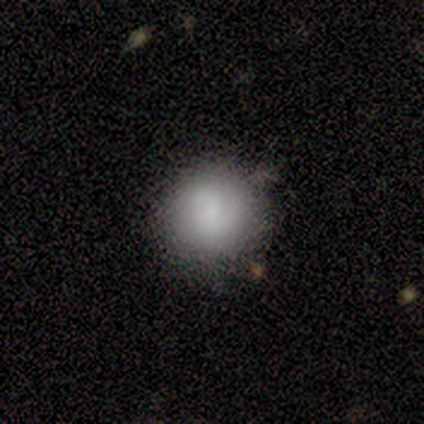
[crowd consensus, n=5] A smooth galaxy with no disk features (60%) that is round (100%).

Vote fractions:
- Smooth or featured? smooth: 60% / featured or disk: 20% / star or artifact: 20%
- How rounded? round: 100% / in between: 0% / cigar-shaped: 0%
- Merging? none: 100% / minor disturbance: 0% / major disturbance: 0% / merger: 0%